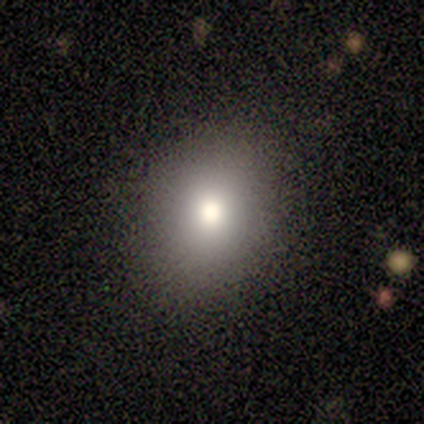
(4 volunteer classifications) Smooth or featured? star or artifact (50%)